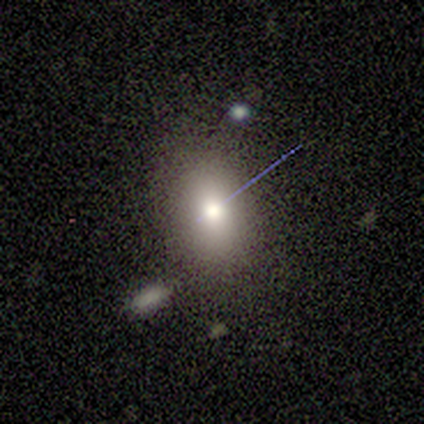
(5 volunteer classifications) smooth 80%, featured or disk 20%, star or artifact 0%. Down the decision tree: how rounded — round (50%, tied with in between); merging — none (80%).